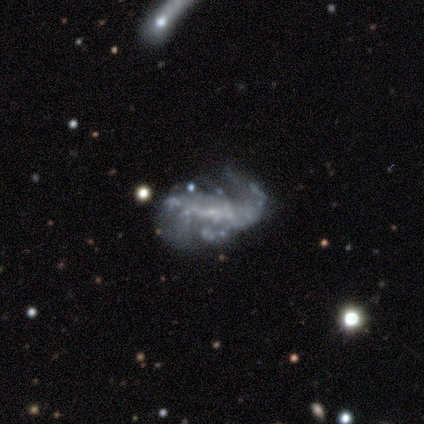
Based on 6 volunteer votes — Q: Smooth or featured?
A: featured or disk (100%)
Q: Edge-on disk?
A: no (83%); runner-up: yes (17%)
Q: Bar?
A: no (60%); runner-up: weak (40%)
Q: Spiral arms?
A: no (60%); runner-up: yes (40%)
Q: Bulge size?
A: small (40%); tied with: none (40%)
Q: Merging?
A: none (67%); runner-up: major disturbance (33%)